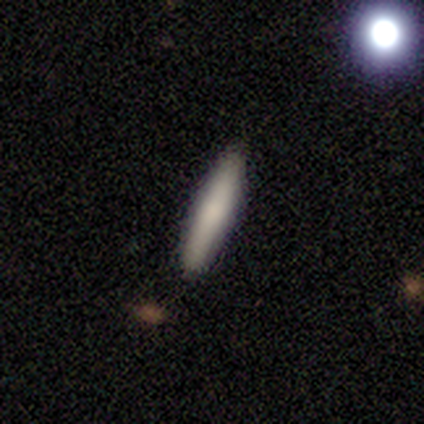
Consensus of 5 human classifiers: smooth 80%, featured or disk 20%, star or artifact 0%. Down the decision tree: how rounded — cigar-shaped (100%); merging — none (100%).